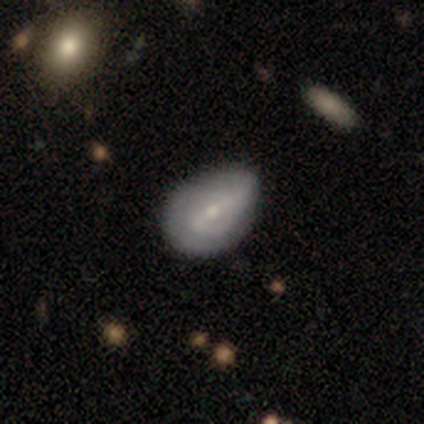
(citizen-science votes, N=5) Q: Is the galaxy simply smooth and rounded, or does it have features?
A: smooth — 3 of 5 (60%).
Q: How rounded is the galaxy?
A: in between — 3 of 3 (100%).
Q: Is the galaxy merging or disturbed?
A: minor disturbance — 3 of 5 (60%).